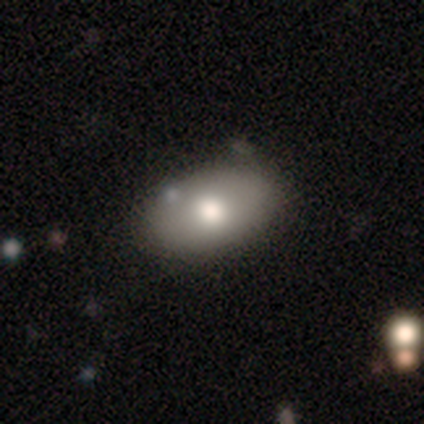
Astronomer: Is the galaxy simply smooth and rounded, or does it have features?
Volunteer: smooth — 79%.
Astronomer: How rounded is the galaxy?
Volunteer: in between — 87%.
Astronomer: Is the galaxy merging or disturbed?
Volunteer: none — 76%.